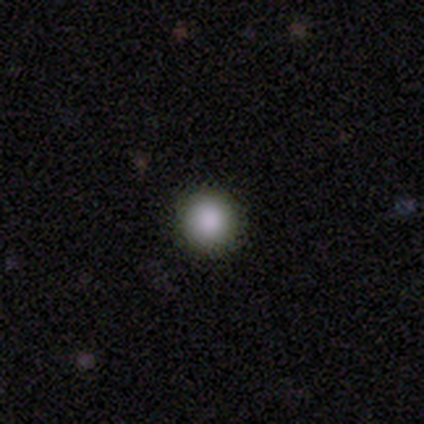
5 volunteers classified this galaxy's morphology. A smooth galaxy with no disk features (100%) that is round (80%).

Vote fractions:
- Smooth or featured? smooth: 100% / featured or disk: 0% / star or artifact: 0%
- How rounded? round: 80% / in between: 20% / cigar-shaped: 0%
- Merging? none: 60% / minor disturbance: 40% / major disturbance: 0% / merger: 0%